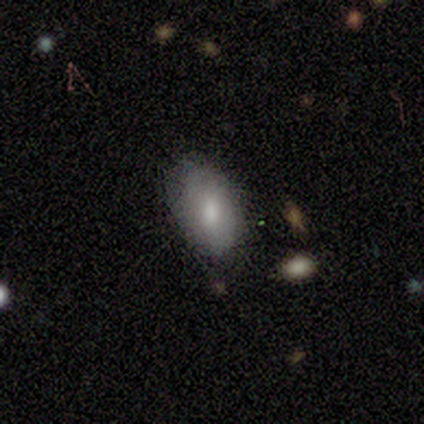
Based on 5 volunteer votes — smooth_or_featured: smooth (p=0.60) [alt: featured or disk p=0.20]
how_rounded: in between (p=1.00)
merging: none (p=1.00)